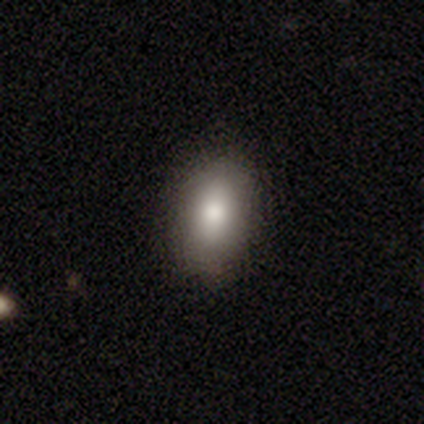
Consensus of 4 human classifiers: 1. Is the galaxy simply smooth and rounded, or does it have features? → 75% smooth, 25% featured or disk, 0% star or artifact.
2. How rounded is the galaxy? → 100% in between, 0% round, 0% cigar-shaped.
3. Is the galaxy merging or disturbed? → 75% none, 25% minor disturbance, 0% major disturbance, 0% merger.